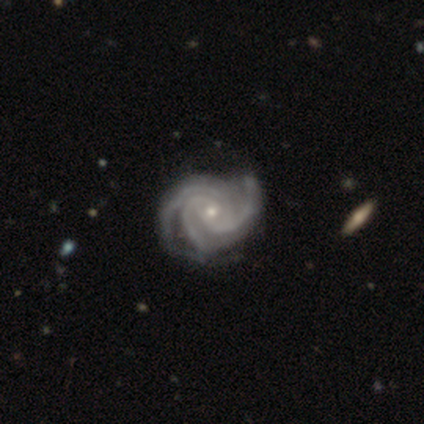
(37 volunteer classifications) smooth_or_featured: featured or disk (p=0.95) [alt: star or artifact p=0.05]
disk_edge_on: no (p=1.00)
bar: no (p=0.83) [alt: weak p=0.14]
has_spiral_arms: yes (p=1.00)
spiral_winding: tight (p=0.63) [alt: medium p=0.34]
spiral_arm_count: 3 (p=0.80) [alt: 4 p=0.09]
bulge_size: small (p=0.71) [alt: moderate p=0.26]
merging: none (p=0.51) [alt: minor disturbance p=0.14]